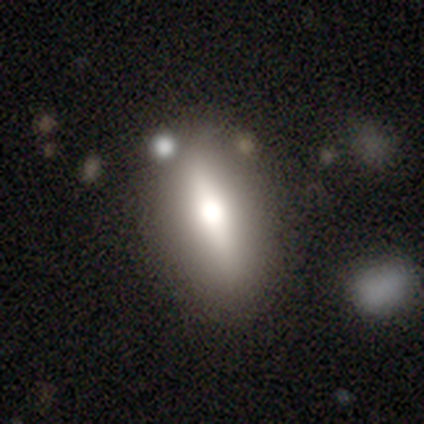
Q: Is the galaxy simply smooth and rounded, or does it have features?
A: featured or disk — 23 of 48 (48%).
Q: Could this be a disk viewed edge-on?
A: yes — 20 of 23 (87%).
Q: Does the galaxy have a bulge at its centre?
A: rounded — 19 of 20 (95%).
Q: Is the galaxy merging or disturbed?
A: none — 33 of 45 (73%).